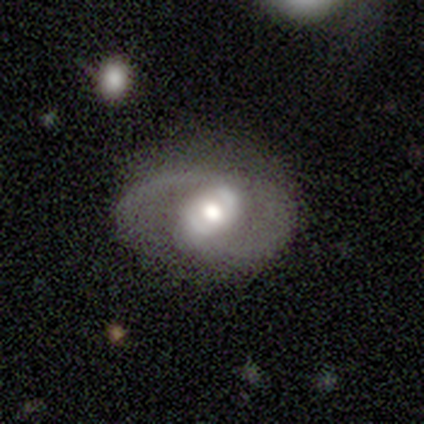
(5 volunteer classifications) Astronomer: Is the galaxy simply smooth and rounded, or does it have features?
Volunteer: featured or disk — 80%.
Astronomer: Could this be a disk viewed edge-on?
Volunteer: no — 100%.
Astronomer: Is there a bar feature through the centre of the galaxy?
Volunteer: no — 75%.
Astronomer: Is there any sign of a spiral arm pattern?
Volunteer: yes — 50%, tied with no at 50%.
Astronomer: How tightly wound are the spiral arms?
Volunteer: medium — 50%, tied with loose at 50%.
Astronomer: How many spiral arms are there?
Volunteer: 2 — 100%.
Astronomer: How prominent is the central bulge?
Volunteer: moderate — 75%.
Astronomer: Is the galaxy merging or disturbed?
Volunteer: none — 40%, tied with minor disturbance at 40%.